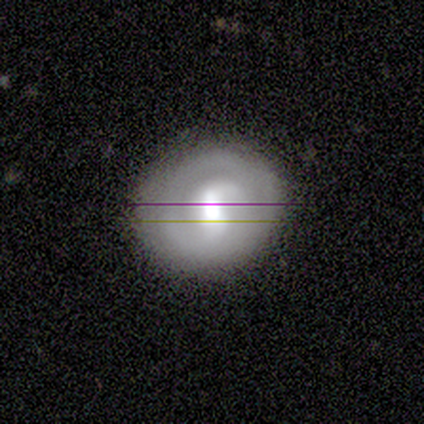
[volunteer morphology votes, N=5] Overall: featured or disk (80%). Edge-on disk: no (100%). Bar: strong (50%; weak 25%). Spiral arms: yes (75%). Spiral arm count: 2 (100%). Spiral winding: tight (33%, tied with medium and loose). Bulge size: large (50%; moderate 25%). Merging: none (100%).